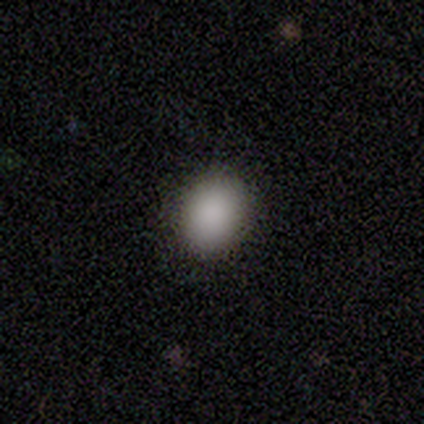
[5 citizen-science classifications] Morphology: type=smooth (100%); roundness=in between (60%); merging=none (80%).